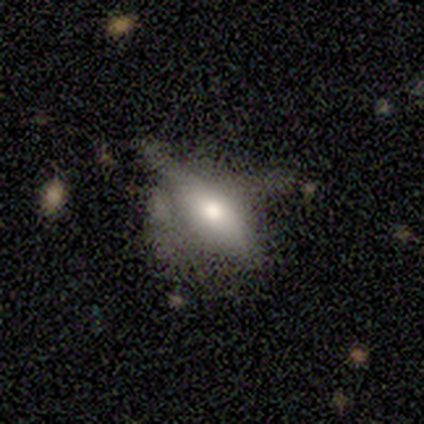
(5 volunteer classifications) Smooth or featured? 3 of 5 (60%) said smooth. How rounded? 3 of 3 (100%) said in between. Merging? 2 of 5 (40%, tied with major disturbance) said none.